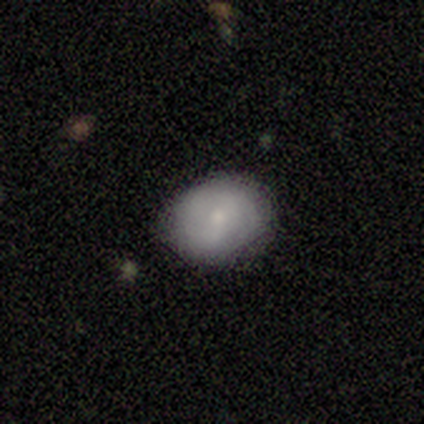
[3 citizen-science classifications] Smooth or featured? smooth (100%)
How rounded? in between (67%)
Merging? none (100%)